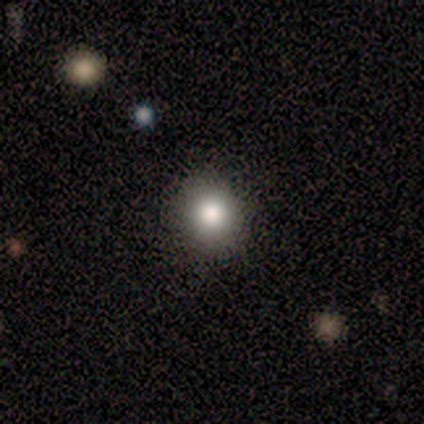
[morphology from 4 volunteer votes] smooth_or_featured: smooth (p=1.00)
how_rounded: round (p=1.00)
merging: none (p=0.75) [alt: minor disturbance p=0.25]